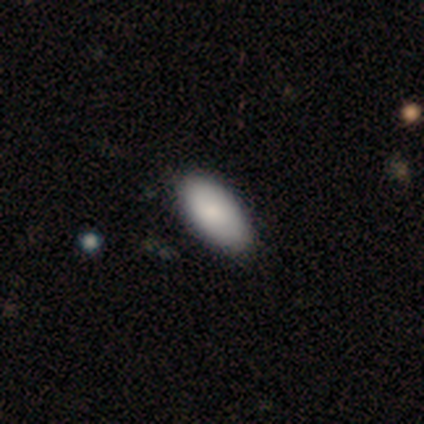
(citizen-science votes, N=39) Volunteers were most divided on "merging": none: 58%, minor disturbance: 5%, major disturbance: 5%, merger: 0%. More confident: how rounded — in between (97%); smooth or featured — smooth (82%).